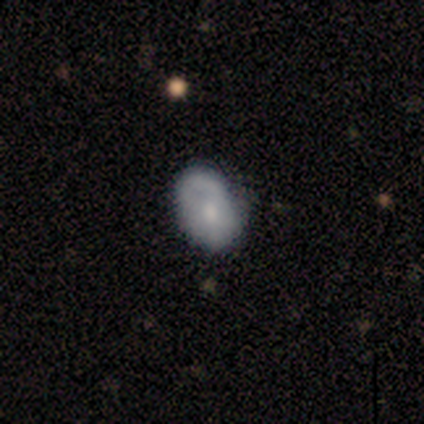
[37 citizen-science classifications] A smooth galaxy with no disk features (62%) that is in between round and cigar-shaped (91%). Merging: none (70%).